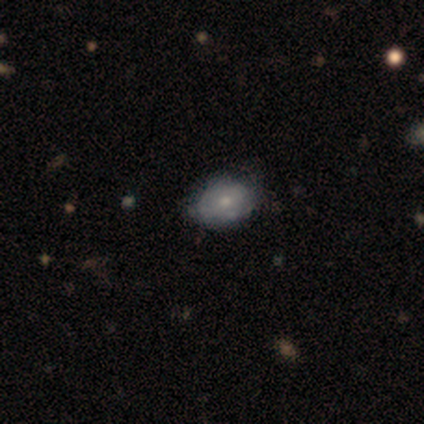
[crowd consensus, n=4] This appears to be a smooth galaxy with no disk features (50%) that is in between round and cigar-shaped (100%). Merging: none (67%).